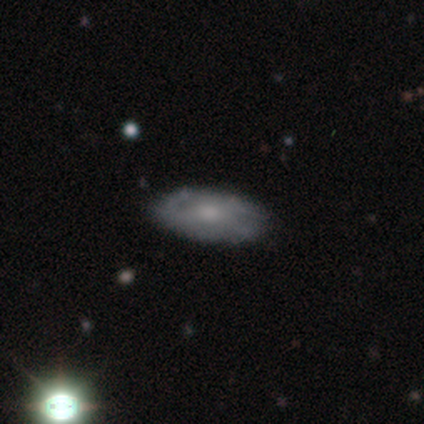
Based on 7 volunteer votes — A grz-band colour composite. It shows a featured or disk galaxy (86%) with no bar (60%), 2 (50%) loose (50%) spiral arms (80%) and a moderate central bulge (80%). Merging: none (71%).